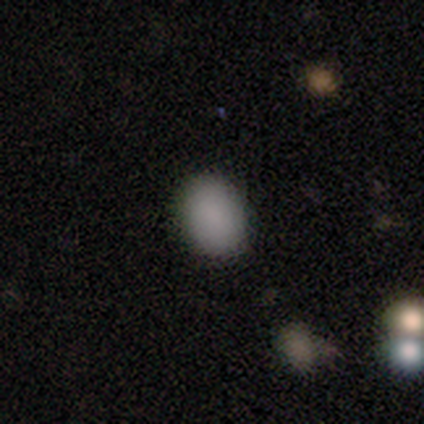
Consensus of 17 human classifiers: Smooth or featured: smooth — 94% (star or artifact — 6%)
How rounded: in between — 81% (round — 19%)
Merging: none — 94% (minor disturbance — 6%)